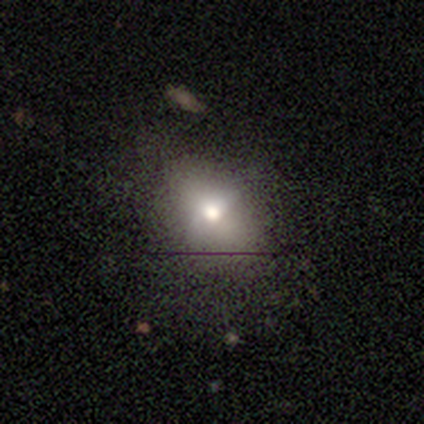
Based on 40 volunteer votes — Q: Smooth or featured?
A: smooth (68%); runner-up: star or artifact (20%)
Q: How rounded?
A: in between (67%); runner-up: round (33%)
Q: Merging?
A: none (78%); runner-up: minor disturbance (16%)